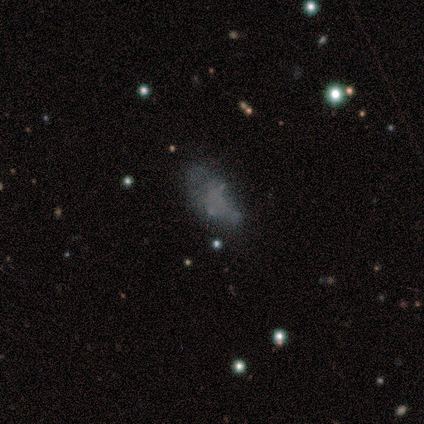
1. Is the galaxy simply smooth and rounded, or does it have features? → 50% smooth (tied), 50% featured or disk (tied), 0% star or artifact.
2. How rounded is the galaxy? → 100% in between, 0% round, 0% cigar-shaped.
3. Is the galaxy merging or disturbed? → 50% none, 25% minor disturbance, 25% major disturbance, 0% merger.